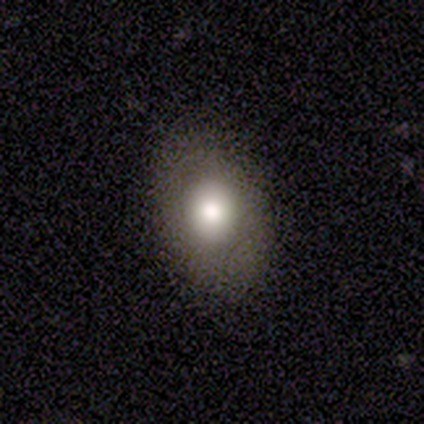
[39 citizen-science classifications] Q: Smooth or featured?
A: smooth (82%); runner-up: featured or disk (13%)
Q: How rounded?
A: in between (66%); runner-up: round (34%)
Q: Merging?
A: none (78%); runner-up: minor disturbance (11%)